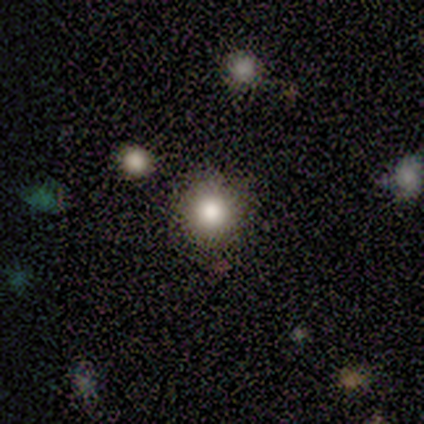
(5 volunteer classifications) Consensus on every question: smooth or featured — smooth (100%); how rounded — round (100%); merging — none (100%).